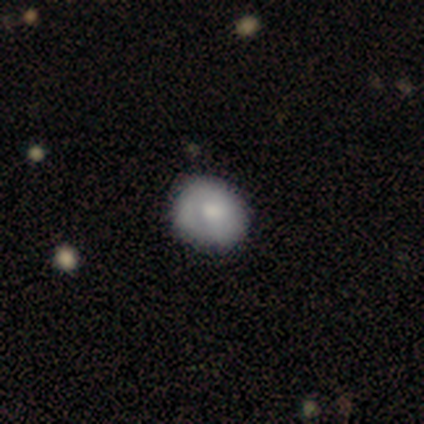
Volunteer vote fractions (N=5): smooth 60%, featured or disk 40%, star or artifact 0%. Down the decision tree: how rounded — round (67%); merging — none (60%).